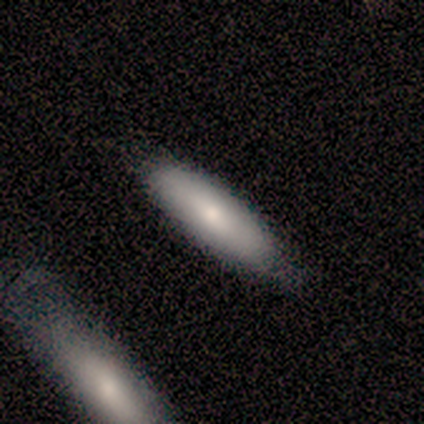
smooth_or_featured: smooth (p=0.60) [alt: featured or disk p=0.40]
how_rounded: cigar-shaped (p=0.67) [alt: in between p=0.33]
merging: none (p=0.80) [alt: minor disturbance p=0.20]